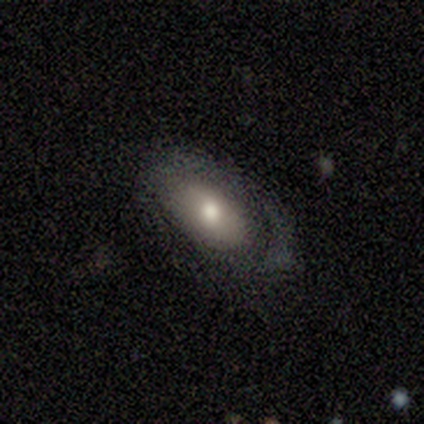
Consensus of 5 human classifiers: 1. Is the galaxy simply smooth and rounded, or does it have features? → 100% smooth, 0% featured or disk, 0% star or artifact.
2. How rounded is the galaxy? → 80% in between, 20% round, 0% cigar-shaped.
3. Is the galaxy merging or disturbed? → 100% none, 0% minor disturbance, 0% major disturbance, 0% merger.